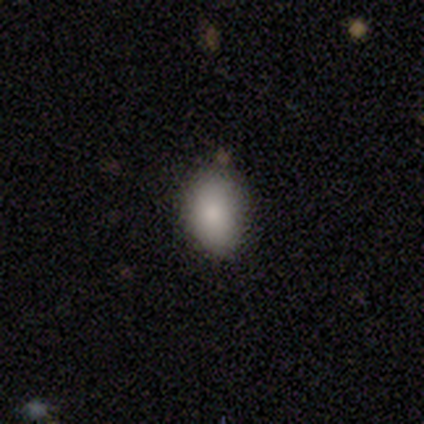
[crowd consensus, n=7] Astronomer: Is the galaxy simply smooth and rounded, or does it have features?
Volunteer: smooth — 71%.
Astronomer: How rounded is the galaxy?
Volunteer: in between — 60% (runner-up: round, 40%).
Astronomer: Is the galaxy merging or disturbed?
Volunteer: none — 57% (runner-up: minor disturbance, 43%).